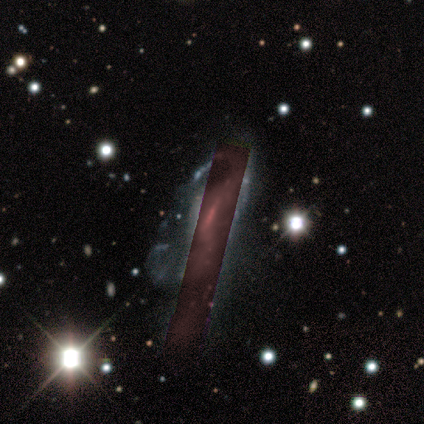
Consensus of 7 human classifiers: Smooth or featured? 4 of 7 (57%) said featured or disk. Edge-on disk? 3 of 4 (75%) said no. Bar? 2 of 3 (67%) said weak. Spiral arms? 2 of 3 (67%) said yes. Spiral winding? 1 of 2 (50%, tied with medium) said tight. Spiral arm count? 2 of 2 (100%) said can't tell. Bulge size? 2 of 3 (67%) said moderate. Merging? 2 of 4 (50%, tied with major disturbance) said none.